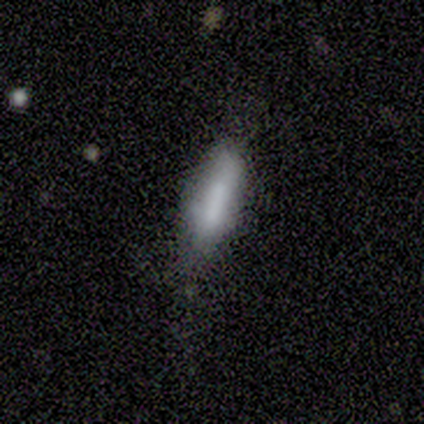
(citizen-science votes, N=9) Smooth or featured? 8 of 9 (89%) said smooth. How rounded? 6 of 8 (75%) said cigar-shaped. Merging? 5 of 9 (56%) said none.